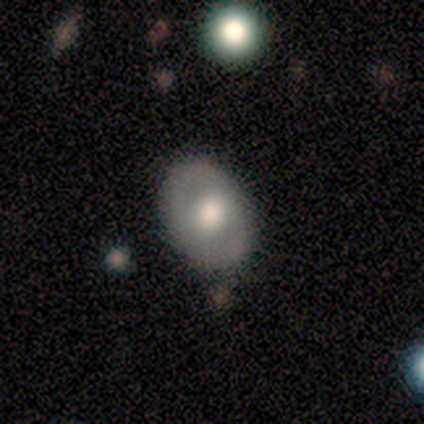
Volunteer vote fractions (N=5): A smooth galaxy with no disk features (80%) that is in between round and cigar-shaped (100%). Merging: none (75%).